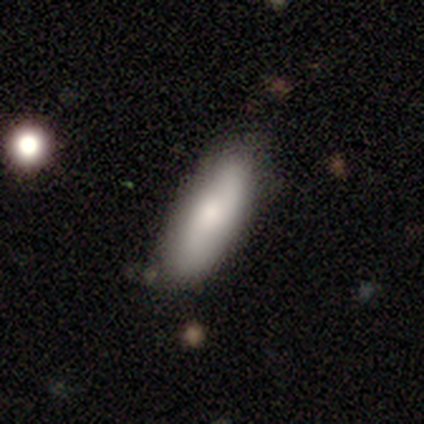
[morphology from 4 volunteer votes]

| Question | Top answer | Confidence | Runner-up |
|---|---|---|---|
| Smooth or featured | smooth | 50% | tied: featured or disk (50%) |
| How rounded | in between | 100% | — |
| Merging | none | 75% | minor disturbance (25%) |